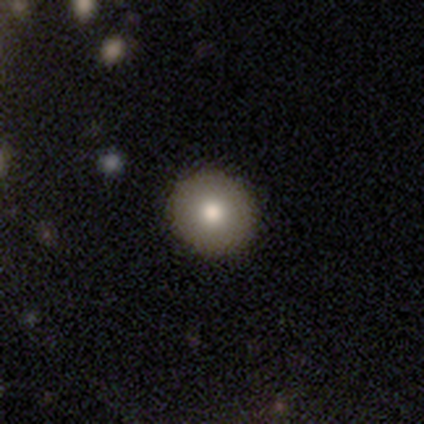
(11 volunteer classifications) This is clearly a smooth galaxy (82%). How rounded: clearly round (100%). Merging: clearly none (80%).